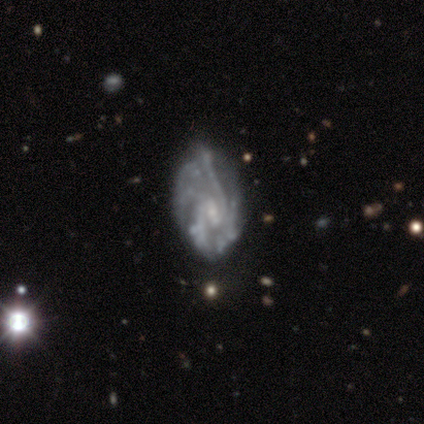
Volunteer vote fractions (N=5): smooth_or_featured: featured or disk (p=1.00)
disk_edge_on: no (p=1.00)
bar: weak (p=0.80) [alt: no p=0.20]
has_spiral_arms: yes (p=1.00)
spiral_winding: medium (p=0.60) [alt: tight p=0.40]
spiral_arm_count: 2 (p=0.40) [alt: 4 p=0.20]
bulge_size: small (p=1.00)
merging: minor disturbance (p=0.60) [alt: none p=0.20]